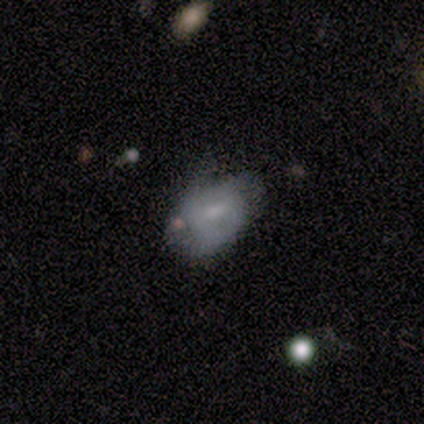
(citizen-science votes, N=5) A smooth galaxy with no disk features (60%) that is round (67%).

Vote fractions:
- Smooth or featured? smooth: 60% / featured or disk: 40% / star or artifact: 0%
- How rounded? round: 67% / in between: 33% / cigar-shaped: 0%
- Merging? none: 40% (tied) / minor disturbance: 40% (tied) / major disturbance: 20% / merger: 0%